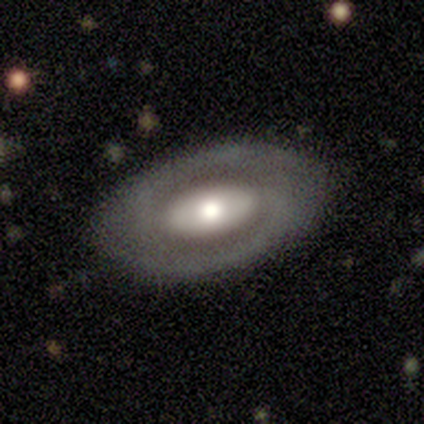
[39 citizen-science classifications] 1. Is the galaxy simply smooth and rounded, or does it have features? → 72% featured or disk, 23% smooth, 5% star or artifact.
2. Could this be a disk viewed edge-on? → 89% no, 11% yes.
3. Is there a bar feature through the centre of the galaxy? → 48% no, 40% strong, 12% weak.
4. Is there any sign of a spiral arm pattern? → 52% yes, 48% no.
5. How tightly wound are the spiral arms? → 69% tight, 15% medium, 15% loose.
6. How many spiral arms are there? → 100% 2, 0% 1, 0% 3, 0% 4, 0% more than 4, 0% can't tell.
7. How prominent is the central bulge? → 64% moderate, 20% large, 12% small, 4% none, 0% dominant.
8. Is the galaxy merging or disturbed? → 92% none, 5% major disturbance, 3% minor disturbance, 0% merger.